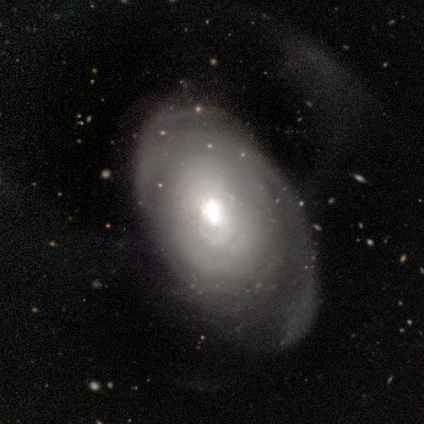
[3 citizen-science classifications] Smooth or featured? featured or disk (67%)
Edge-on disk? no (100%)
Bar? no (100%)
Spiral arms? yes (50%, tied with no)
Spiral winding? tight (100%)
Spiral arm count? 1 (100%)
Bulge size? moderate (100%)
Merging? none (33%, tied with minor disturbance and major disturbance)